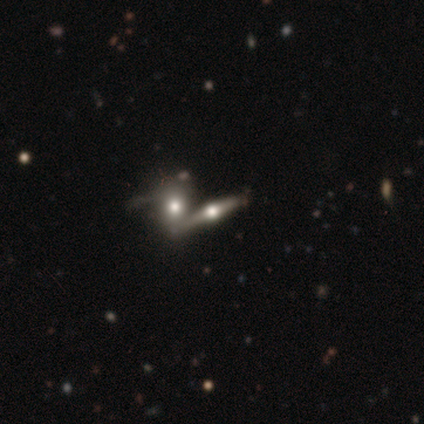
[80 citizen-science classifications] Volunteers were most divided on "smooth or featured": featured or disk: 62%, smooth: 28%, star or artifact: 10%. More confident: edge-on bulge — rounded (95%); edge-on disk — yes (88%); merging — merger (54%).